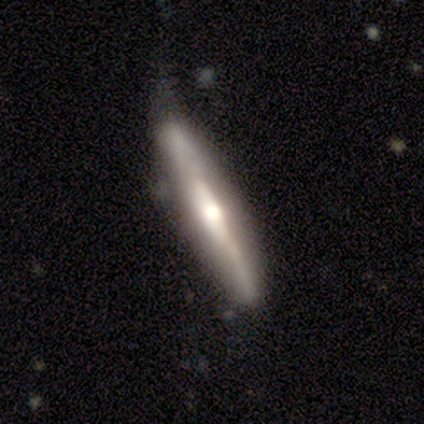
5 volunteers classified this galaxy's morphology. This appears to be a featured or disk galaxy (80%) viewed edge-on (100%) with a rounded central bulge (100%). Merging: none (80%).